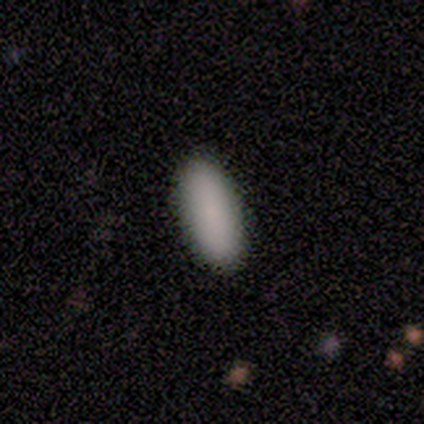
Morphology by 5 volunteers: smooth 100%, featured or disk 0%, star or artifact 0%. Down the decision tree: how rounded — in between (80%); merging — none (100%).